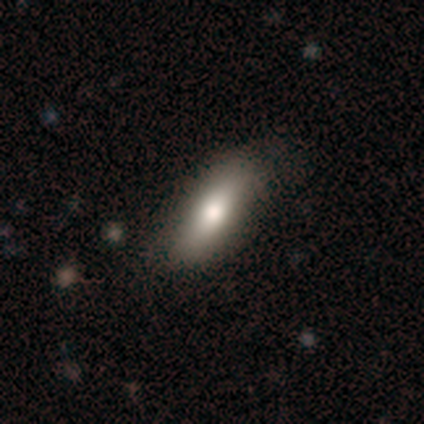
Morphology: type=smooth (85%); roundness=in between (76%); merging=none (63%).